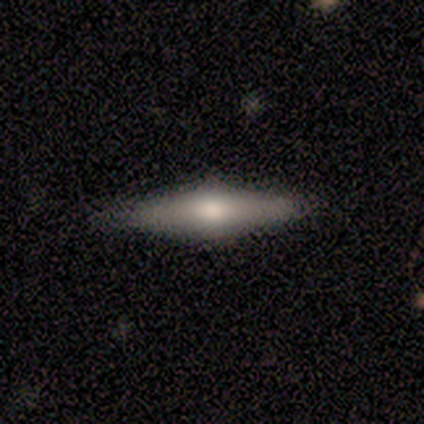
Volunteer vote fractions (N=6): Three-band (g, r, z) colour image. It shows a featured or disk galaxy (83%) viewed edge-on (100%) with a rounded central bulge (100%). Merging: none (100%).